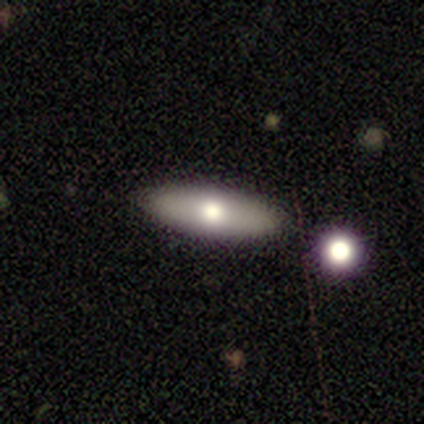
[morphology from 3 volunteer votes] Smooth or featured?
  - featured or disk: 67% *
  - smooth: 33%
  - star or artifact: 0%
Edge-on disk?
  - no: 100% *
  - yes: 0%
Bar?
  - no: 100% *
  - strong: 0%
  - weak: 0%
Spiral arms?
  - no: 100% *
  - yes: 0%
Bulge size?
  - moderate: 100% *
  - dominant: 0%
  - large: 0%
  - small: 0%
  - none: 0%
Merging?
  - none: 67% *
  - minor disturbance: 33%
  - major disturbance: 0%
  - merger: 0%